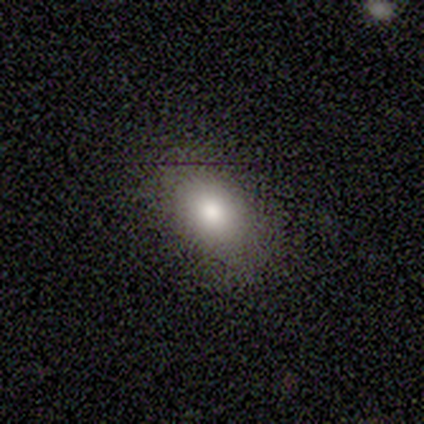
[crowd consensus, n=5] smooth_or_featured: smooth (p=0.80) [alt: featured or disk p=0.20]
how_rounded: in between (p=1.00)
merging: none (p=1.00)